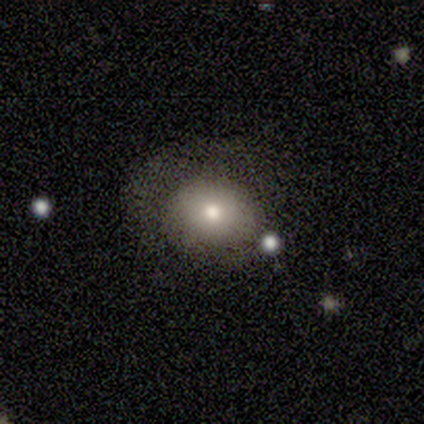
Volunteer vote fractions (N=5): This appears to be a smooth galaxy with no disk features (80%) that is round (75%). Merging: none (40%, tied with minor disturbance).